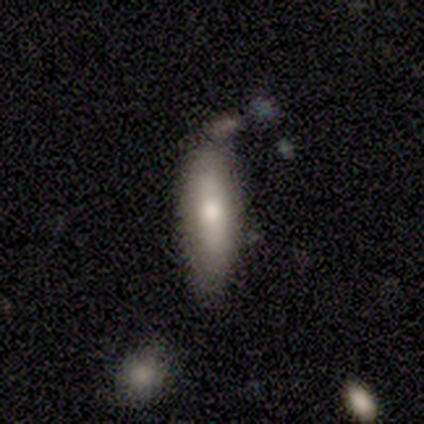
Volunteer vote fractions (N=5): Smooth or featured: smooth — 100%
How rounded: cigar-shaped — 100%
Merging: none — 60% (minor disturbance — 40%)